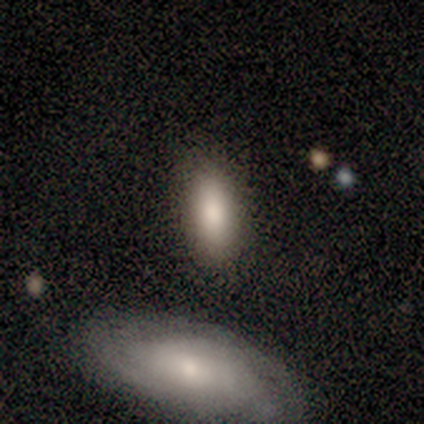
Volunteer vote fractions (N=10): Smooth or featured? smooth (80%)
How rounded? in between (75%)
Merging? none (80%)